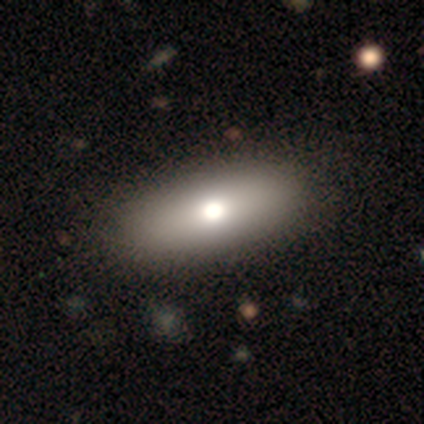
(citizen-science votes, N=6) A smooth galaxy with no disk features (50%) that is in between round and cigar-shaped (67%).

Vote fractions:
- Smooth or featured? smooth: 50% / featured or disk: 33% / star or artifact: 17%
- How rounded? in between: 67% / cigar-shaped: 33% / round: 0%
- Merging? none: 80% / merger: 20% / minor disturbance: 0% / major disturbance: 0%